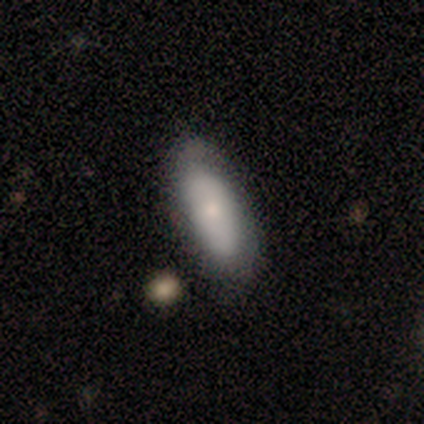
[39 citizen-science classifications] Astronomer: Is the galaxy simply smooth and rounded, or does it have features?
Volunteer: smooth — 77%.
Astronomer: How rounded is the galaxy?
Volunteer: in between — 70%.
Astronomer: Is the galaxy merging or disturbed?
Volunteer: none — 49%.